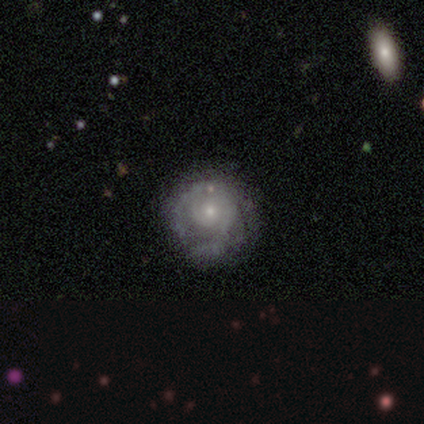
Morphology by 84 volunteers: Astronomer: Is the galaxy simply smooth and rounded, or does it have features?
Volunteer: featured or disk — 70%.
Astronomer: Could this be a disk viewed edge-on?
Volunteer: no — 100%.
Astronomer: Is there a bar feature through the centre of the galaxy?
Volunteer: no — 90%.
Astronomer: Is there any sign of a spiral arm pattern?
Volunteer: yes — 80%.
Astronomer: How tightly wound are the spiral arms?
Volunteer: tight — 70%.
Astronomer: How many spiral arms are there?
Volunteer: can't tell — 51% (runner-up: 2, 28%).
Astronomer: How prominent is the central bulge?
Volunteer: small — 73%.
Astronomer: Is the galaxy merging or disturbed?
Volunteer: none — 63%.